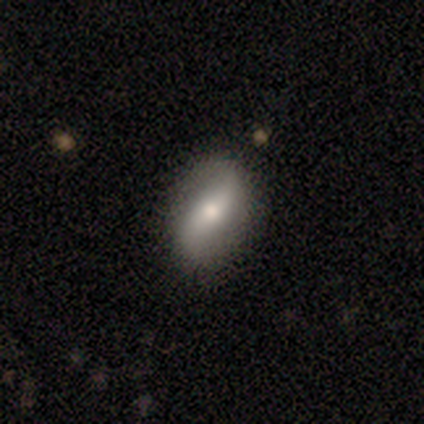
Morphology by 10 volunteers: Smooth or featured?
  - featured or disk: 80% *
  - smooth: 20%
  - star or artifact: 0%
Edge-on disk?
  - no: 100% *
  - yes: 0%
Bar?
  - no: 62% *
  - strong: 25%
  - weak: 12%
Spiral arms?
  - yes: 88% *
  - no: 12%
Spiral winding?
  - loose: 86% *
  - medium: 14%
  - tight: 0%
Spiral arm count?
  - 2: 100% *
  - 1: 0%
  - 3: 0%
  - 4: 0%
  - more than 4: 0%
  - can't tell: 0%
Bulge size?
  - moderate: 38% * (tied)
  - small: 38% * (tied)
  - large: 25%
  - dominant: 0%
  - none: 0%
Merging?
  - none: 90% *
  - minor disturbance: 10%
  - major disturbance: 0%
  - merger: 0%